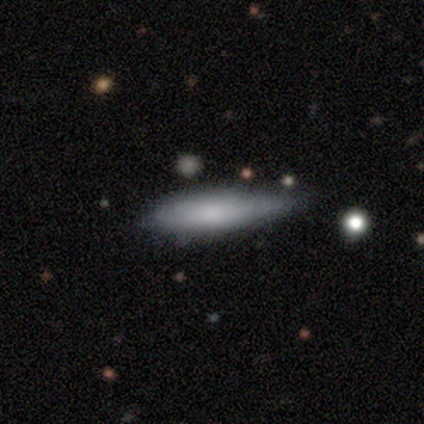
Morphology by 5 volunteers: type=smooth (100%); roundness=cigar-shaped (80%); merging=none (60%).